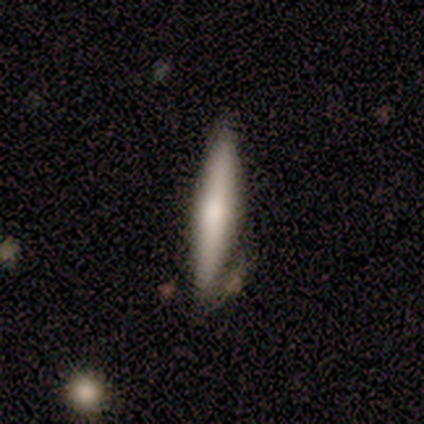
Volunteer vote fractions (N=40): smooth 57%, featured or disk 38%, star or artifact 5%. Down the decision tree: how rounded — cigar-shaped (87%); merging — none (58%).